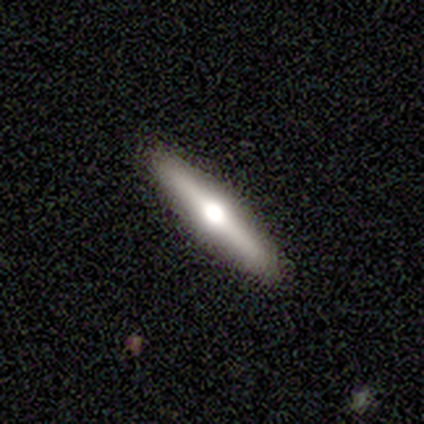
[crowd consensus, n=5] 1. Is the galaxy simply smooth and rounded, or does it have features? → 60% featured or disk, 40% smooth, 0% star or artifact.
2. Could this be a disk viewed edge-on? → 100% yes, 0% no.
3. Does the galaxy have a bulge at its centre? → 67% rounded, 33% boxy, 0% none.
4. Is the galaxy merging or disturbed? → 100% none, 0% minor disturbance, 0% major disturbance, 0% merger.